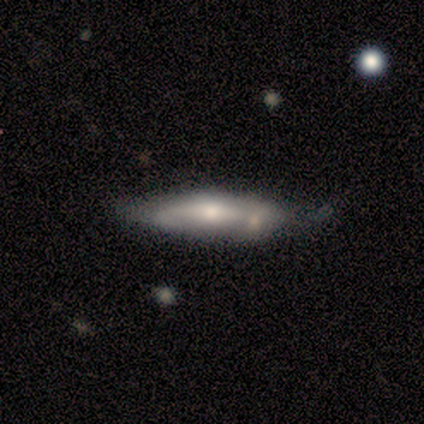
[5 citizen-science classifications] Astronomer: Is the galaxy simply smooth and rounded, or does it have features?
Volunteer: smooth — 80%.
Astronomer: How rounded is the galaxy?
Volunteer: cigar-shaped — 75%.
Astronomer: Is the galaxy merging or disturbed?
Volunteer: none — 40%, tied with minor disturbance at 40%.